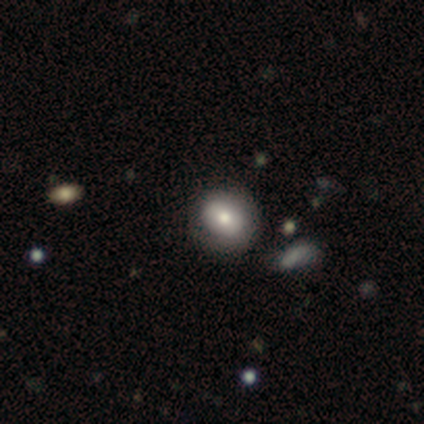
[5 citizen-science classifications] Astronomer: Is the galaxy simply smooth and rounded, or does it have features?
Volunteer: smooth — 80%.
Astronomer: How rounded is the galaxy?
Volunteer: in between — 75%.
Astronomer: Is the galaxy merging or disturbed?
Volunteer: none — 80%.